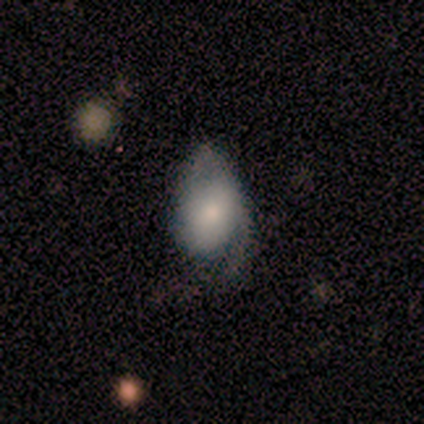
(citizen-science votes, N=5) smooth-or-featured: smooth: 60% | featured or disk: 40% | star or artifact: 0%
  how-rounded: in between: 100% | round: 0% | cigar-shaped: 0%
  merging: minor disturbance: 40% (tied) | major disturbance: 40% (tied) | none: 20% | merger: 0%